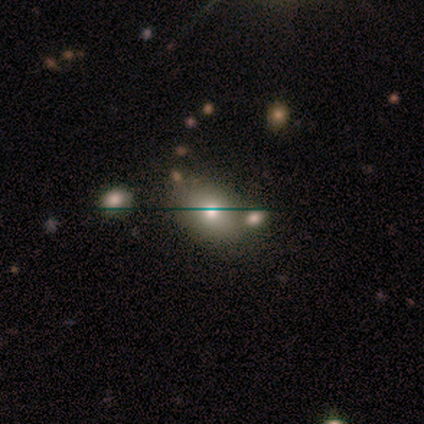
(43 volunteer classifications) smooth_or_featured: smooth (p=0.58) [alt: featured or disk p=0.30]
how_rounded: in between (p=0.80) [alt: round p=0.20]
merging: none (p=0.55) [alt: minor disturbance p=0.24]